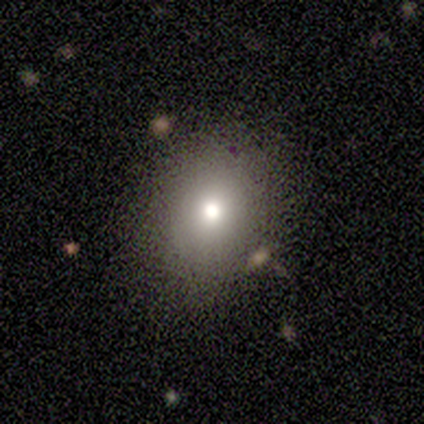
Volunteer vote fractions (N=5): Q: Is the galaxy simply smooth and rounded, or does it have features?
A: smooth — 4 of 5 (80%).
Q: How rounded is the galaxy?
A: round — 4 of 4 (100%).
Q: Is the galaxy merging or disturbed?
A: none — 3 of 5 (60%).